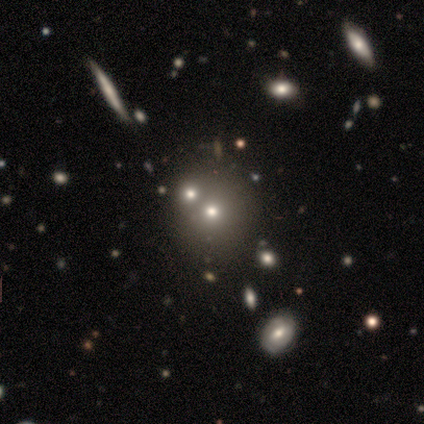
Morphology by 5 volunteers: smooth_or_featured: smooth (p=0.40) [tied with: featured or disk p=0.40]
how_rounded: round (p=1.00)
merging: none (p=0.50) [tied with: merger p=0.50]